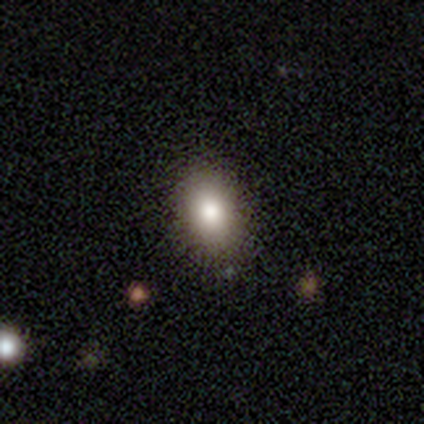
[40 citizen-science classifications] Q: Smooth or featured?
A: smooth (88%); runner-up: featured or disk (8%)
Q: How rounded?
A: in between (83%); runner-up: round (17%)
Q: Merging?
A: none (84%); runner-up: major disturbance (8%)